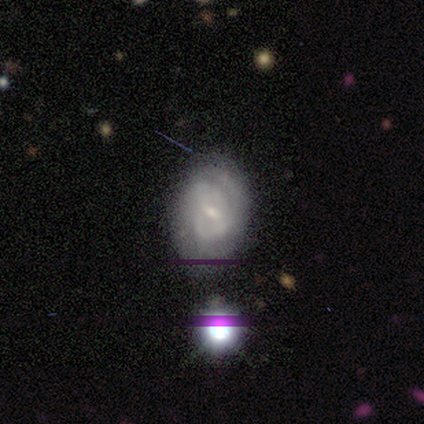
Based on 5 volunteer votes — Smooth or featured? 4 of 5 (80%) said featured or disk. Edge-on disk? 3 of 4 (75%) said no. Bar? 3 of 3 (100%) said weak. Spiral arms? 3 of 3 (100%) said yes. Spiral winding? 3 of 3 (100%) said tight. Spiral arm count? 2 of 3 (67%) said 2. Bulge size? 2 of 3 (67%) said small. Merging? 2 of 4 (50%) said none.